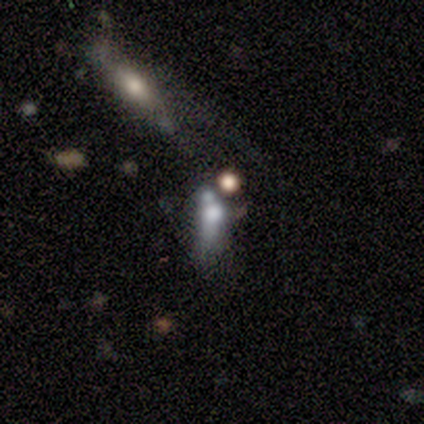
Volunteers were most divided on "how rounded": in between: 75%, cigar-shaped: 25%, round: 0%. More confident: smooth or featured — smooth (80%); merging — merger (80%).